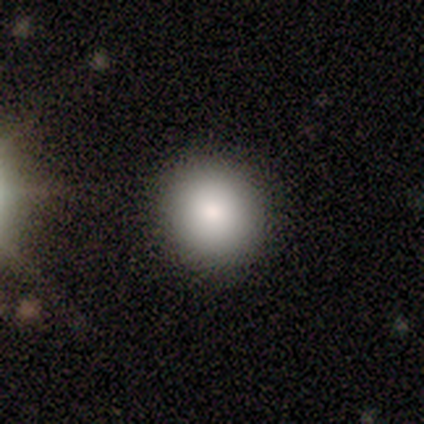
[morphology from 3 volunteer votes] Smooth or featured: smooth — 67% (featured or disk — 33%)
How rounded: round — 100%
Merging: minor disturbance — 67% (none — 33%)